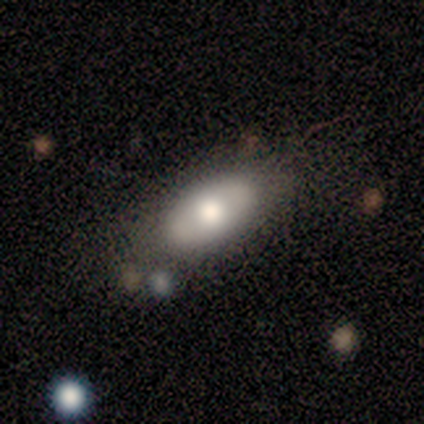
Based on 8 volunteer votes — Overall: smooth (75%). How rounded: in between (100%). Merging: none (100%).